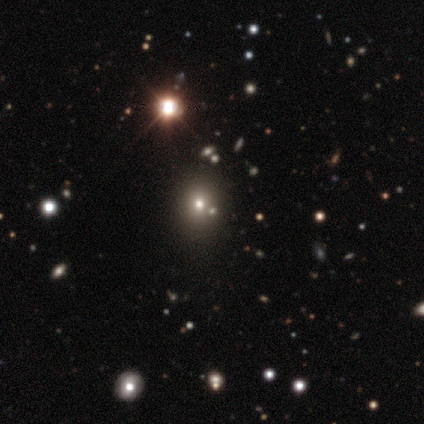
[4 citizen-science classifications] Morphology: type=star or artifact (100%).